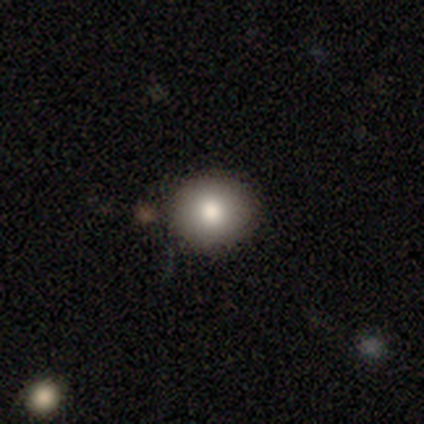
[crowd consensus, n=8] Smooth or featured? smooth (100%)
How rounded? round (88%)
Merging? none (100%)